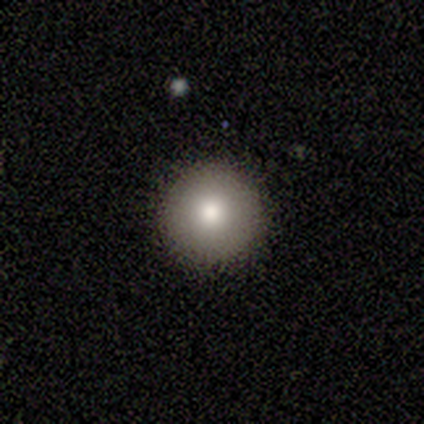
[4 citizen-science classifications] A smooth galaxy with no disk features (100%) that is round (100%). Merging: none (100%).